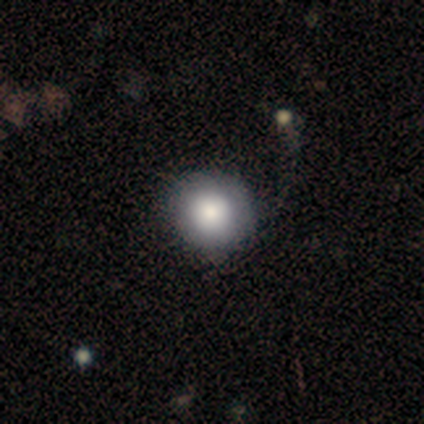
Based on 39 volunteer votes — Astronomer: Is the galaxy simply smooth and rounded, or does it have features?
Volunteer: smooth — 74%.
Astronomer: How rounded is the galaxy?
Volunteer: round — 97%.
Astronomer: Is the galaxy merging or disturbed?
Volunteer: none — 54%.